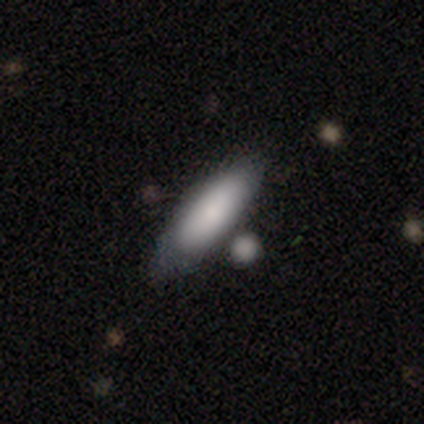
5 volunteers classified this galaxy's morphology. A smooth galaxy with no disk features (100%) that is in between round and cigar-shaped (40%, tied with cigar-shaped).

Vote fractions:
- Smooth or featured? smooth: 100% / featured or disk: 0% / star or artifact: 0%
- How rounded? in between: 40% (tied) / cigar-shaped: 40% (tied) / round: 20%
- Merging? none: 60% / minor disturbance: 20% / major disturbance: 20% / merger: 0%